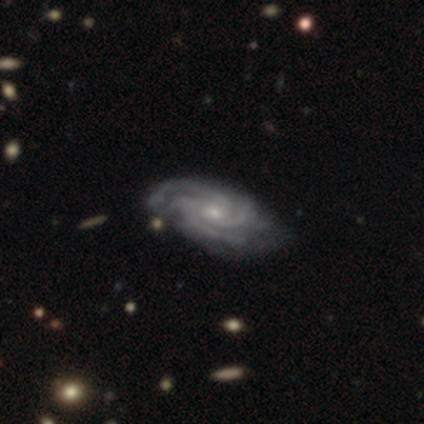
Smooth or featured? 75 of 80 (94%) said featured or disk. Edge-on disk? 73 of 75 (97%) said no. Bar? 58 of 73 (79%) said no. Spiral arms? 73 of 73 (100%) said yes. Spiral winding? 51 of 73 (70%) said tight. Spiral arm count? 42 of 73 (58%) said 3. Bulge size? 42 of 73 (58%) said small. Merging? 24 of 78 (31%) said none.